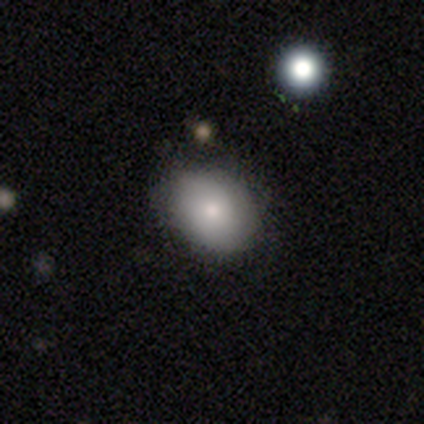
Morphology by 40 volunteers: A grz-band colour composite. It shows a smooth galaxy with no disk features (72%) that is in between round and cigar-shaped (59%). Merging: none (77%).